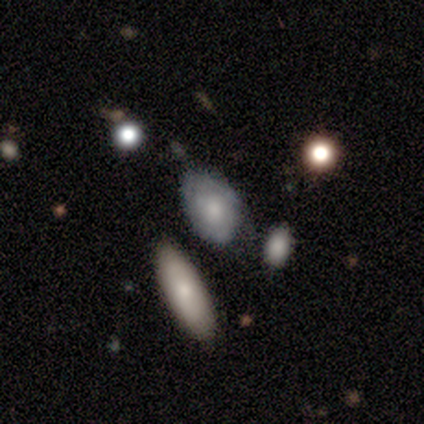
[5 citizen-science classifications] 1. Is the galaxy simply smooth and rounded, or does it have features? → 80% smooth, 20% featured or disk, 0% star or artifact.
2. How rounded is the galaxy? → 75% in between, 25% round, 0% cigar-shaped.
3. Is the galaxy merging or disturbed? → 60% none, 40% minor disturbance, 0% major disturbance, 0% merger.